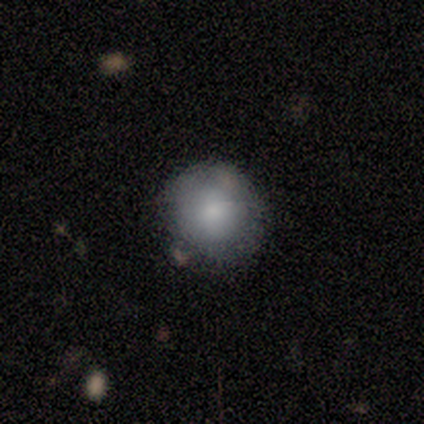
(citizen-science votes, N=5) Smooth or featured?
  - smooth: 100% *
  - featured or disk: 0%
  - star or artifact: 0%
How rounded?
  - round: 100% *
  - in between: 0%
  - cigar-shaped: 0%
Merging?
  - none: 60% *
  - minor disturbance: 20%
  - merger: 20%
  - major disturbance: 0%